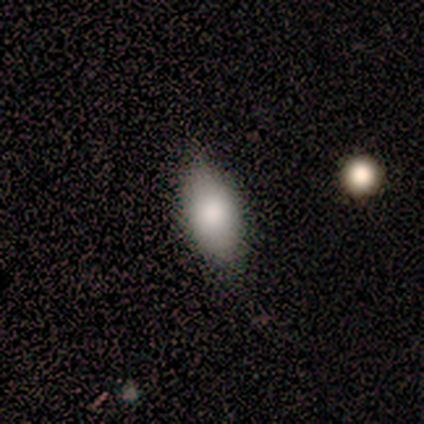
Volunteers were most divided on "merging": none: 67%, minor disturbance: 33%, major disturbance: 0%, merger: 0%. More confident: smooth or featured — smooth (100%); how rounded — in between (83%).